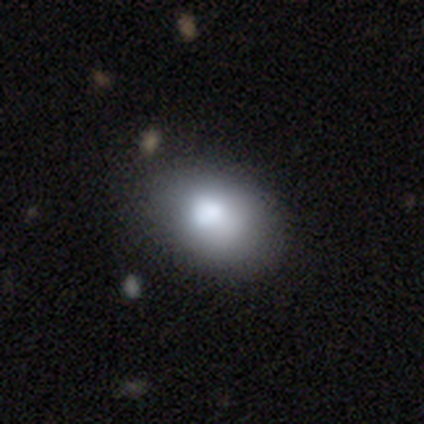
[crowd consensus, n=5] Overall: smooth (80%). How rounded: in between (75%). Merging: none (60%; minor disturbance 40%).